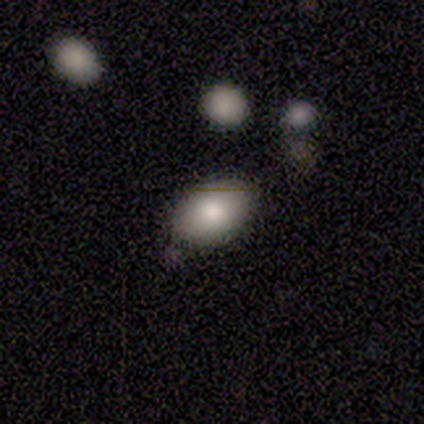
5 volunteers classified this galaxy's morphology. smooth-or-featured: smooth: 80% | featured or disk: 20% | star or artifact: 0%
  how-rounded: in between: 100% | round: 0% | cigar-shaped: 0%
  merging: none: 80% | minor disturbance: 20% | major disturbance: 0% | merger: 0%